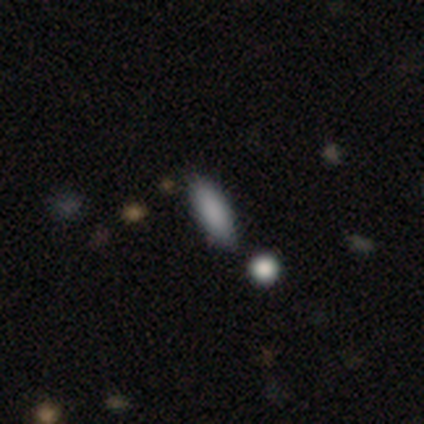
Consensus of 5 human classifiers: smooth-or-featured: smooth: 80% | featured or disk: 20% | star or artifact: 0%
  how-rounded: in between: 100% | round: 0% | cigar-shaped: 0%
  merging: none: 80% | merger: 20% | minor disturbance: 0% | major disturbance: 0%